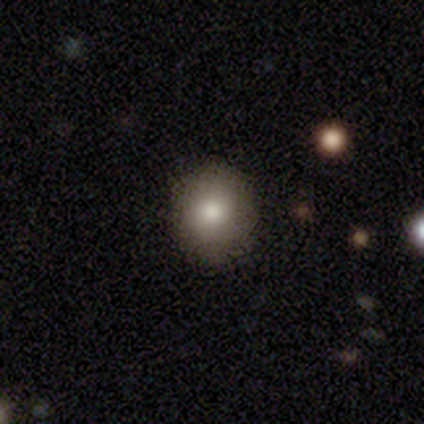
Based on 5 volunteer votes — This appears to be a smooth galaxy with no disk features (100%) that is round (80%). Merging: none (100%).